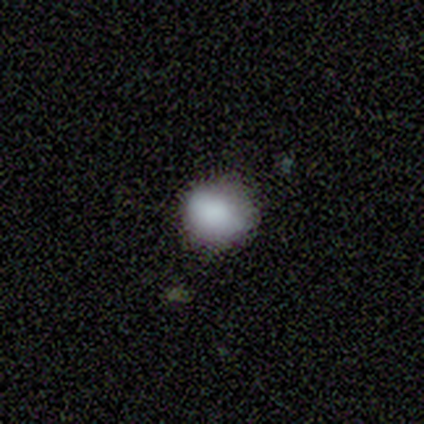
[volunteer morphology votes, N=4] smooth_or_featured: smooth (p=1.00)
how_rounded: round (p=0.75) [alt: in between p=0.25]
merging: none (p=0.75) [alt: minor disturbance p=0.25]